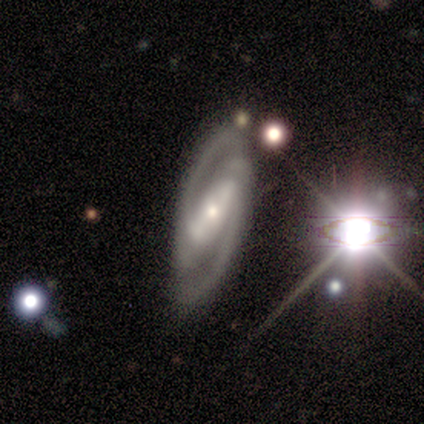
Morphology: type=featured or disk (100%); edge-on=no (83%); bar=strong (80%); spiral arms=yes (100%); winding=tight (60%); arm count=2 (100%); bulge=moderate (40%, tied with small); merging=none (100%).